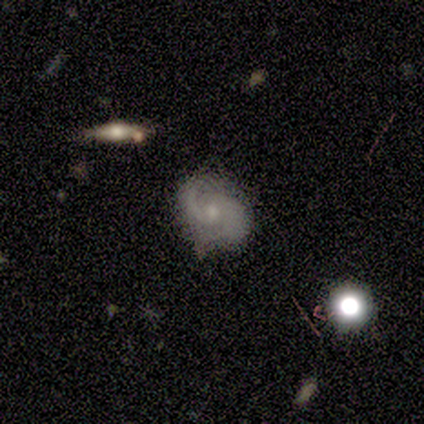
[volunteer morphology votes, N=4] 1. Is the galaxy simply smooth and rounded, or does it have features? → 75% featured or disk, 25% star or artifact, 0% smooth.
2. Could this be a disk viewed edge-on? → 100% no, 0% yes.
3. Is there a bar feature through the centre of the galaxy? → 100% weak, 0% strong, 0% no.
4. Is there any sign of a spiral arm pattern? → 100% yes, 0% no.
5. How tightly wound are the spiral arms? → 100% loose, 0% tight, 0% medium.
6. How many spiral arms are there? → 67% 2, 33% 1, 0% 3, 0% 4, 0% more than 4, 0% can't tell.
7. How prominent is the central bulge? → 67% none, 33% small, 0% dominant, 0% large, 0% moderate.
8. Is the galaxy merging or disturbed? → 100% none, 0% minor disturbance, 0% major disturbance, 0% merger.